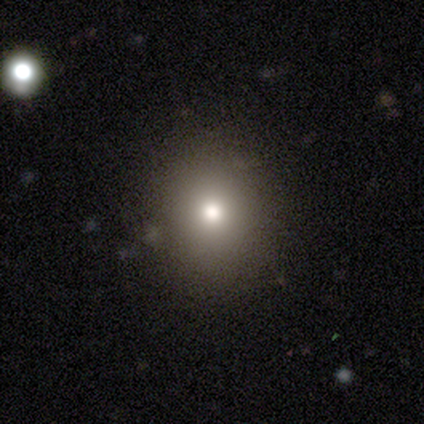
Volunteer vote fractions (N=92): smooth-or-featured: smooth: 73% | star or artifact: 18% | featured or disk: 9%
  how-rounded: round: 81% | in between: 19% | cigar-shaped: 0%
  merging: none: 84% | merger: 7% | major disturbance: 5% | minor disturbance: 4%